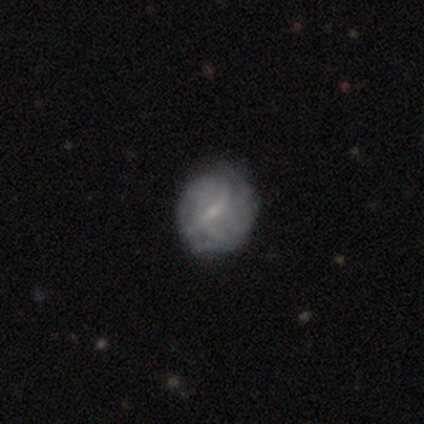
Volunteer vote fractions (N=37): A featured or disk galaxy (76%) with a weak bar (73%), tight (67%) spiral arms (69%) and a small central bulge (81%).

Vote fractions:
- Smooth or featured? featured or disk: 76% / smooth: 19% / star or artifact: 5%
- Edge-on disk? no: 93% / yes: 7%
- Bar? weak: 73% / strong: 15% / no: 12%
- Spiral arms? yes: 69% / no: 31%
- Spiral winding? tight: 67% / medium: 17% / loose: 17%
- Spiral arm count? can't tell: 50% / 2: 17% / 3: 11% / 4: 11% / more than 4: 11% / 1: 0%
- Bulge size? small: 81% / none: 19% / dominant: 0% / large: 0% / moderate: 0%
- Merging? none: 71% / minor disturbance: 23% / major disturbance: 6% / merger: 0%